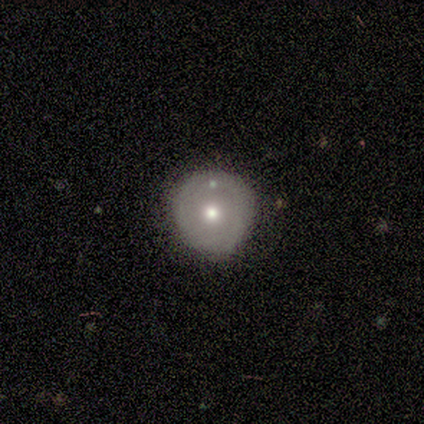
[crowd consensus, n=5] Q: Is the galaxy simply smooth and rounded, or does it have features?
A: smooth — 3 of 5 (60%).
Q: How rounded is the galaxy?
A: round — 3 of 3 (100%).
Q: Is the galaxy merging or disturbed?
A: none — 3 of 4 (75%).